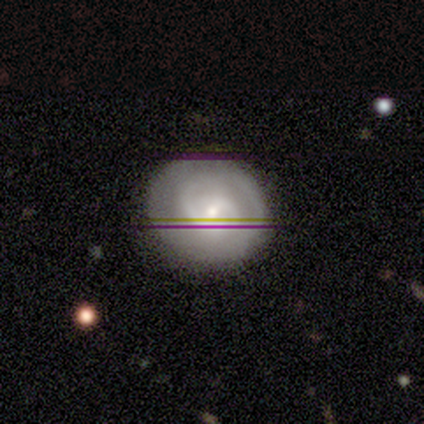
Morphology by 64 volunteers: smooth_or_featured: featured or disk (p=0.81) [alt: smooth p=0.11]
disk_edge_on: no (p=0.96) [alt: yes p=0.04]
bar: weak (p=0.54) [alt: no p=0.34]
has_spiral_arms: yes (p=0.90) [alt: no p=0.10]
spiral_winding: medium (p=0.56) [alt: tight p=0.44]
spiral_arm_count: 2 (p=0.69) [alt: can't tell p=0.16]
bulge_size: small (p=0.54) [alt: moderate p=0.38]
merging: none (p=0.83) [alt: minor disturbance p=0.12]